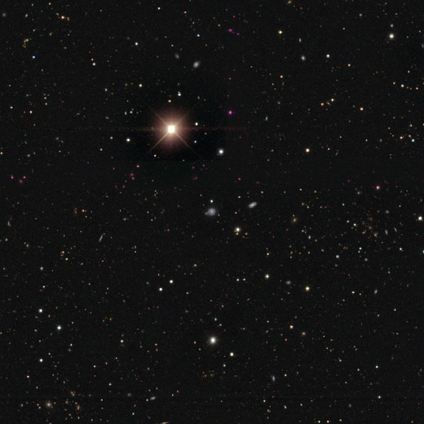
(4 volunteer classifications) Smooth or featured? star or artifact (75%)